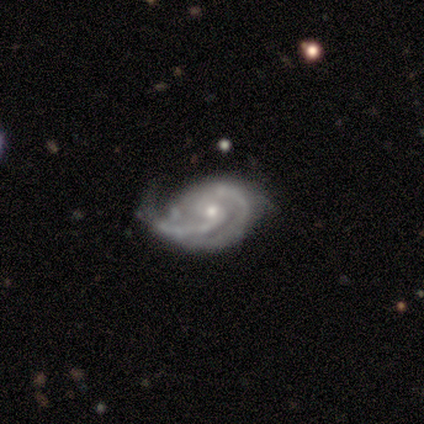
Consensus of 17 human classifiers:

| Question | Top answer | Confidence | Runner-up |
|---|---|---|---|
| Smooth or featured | featured or disk | 100% | — |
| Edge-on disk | no | 100% | — |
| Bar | no | 59% | weak (41%) |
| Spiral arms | yes | 94% | no (6%) |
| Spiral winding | tight | 56% | medium (25%) |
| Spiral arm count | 2 | 62% | 3 (19%) |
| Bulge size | small | 71% | moderate (29%) |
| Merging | minor disturbance | 41% | none (35%) |